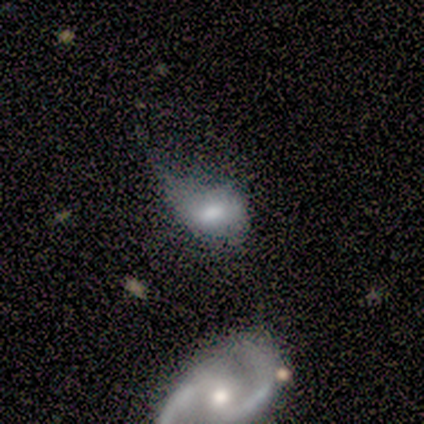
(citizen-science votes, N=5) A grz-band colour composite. It shows a featured or disk galaxy (80%) with no bar (100%), no spiral arms (75%) and a moderate central bulge (50%, tied with small). Merging: minor disturbance (40%).